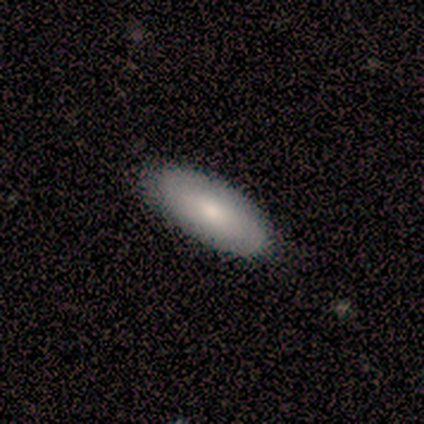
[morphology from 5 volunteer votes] Smooth or featured?
  - featured or disk: 80% *
  - star or artifact: 20%
  - smooth: 0%
Edge-on disk?
  - yes: 75% *
  - no: 25%
Edge-on bulge?
  - rounded: 100% *
  - boxy: 0%
  - none: 0%
Merging?
  - none: 100% *
  - minor disturbance: 0%
  - major disturbance: 0%
  - merger: 0%